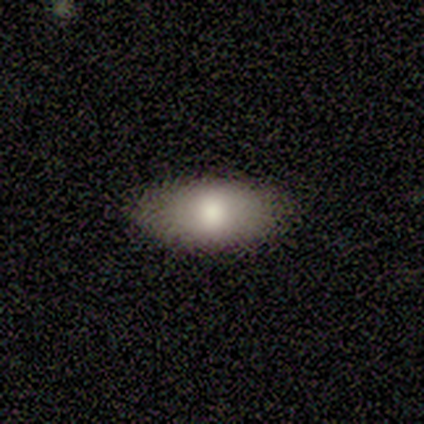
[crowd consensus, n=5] Overall: smooth (100%). How rounded: in between (100%). Merging: none (80%).